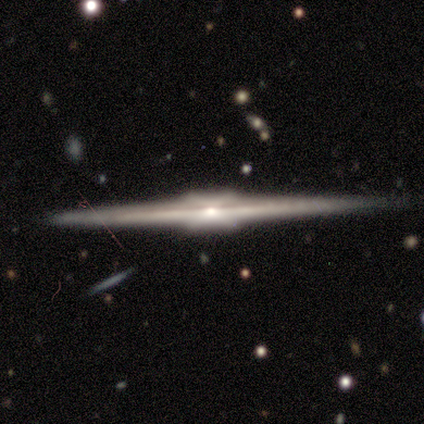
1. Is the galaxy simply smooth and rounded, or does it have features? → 80% featured or disk, 20% star or artifact, 0% smooth.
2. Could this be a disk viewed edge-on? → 100% yes, 0% no.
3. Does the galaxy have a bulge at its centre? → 100% boxy, 0% none, 0% rounded.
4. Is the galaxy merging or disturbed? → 100% none, 0% minor disturbance, 0% major disturbance, 0% merger.